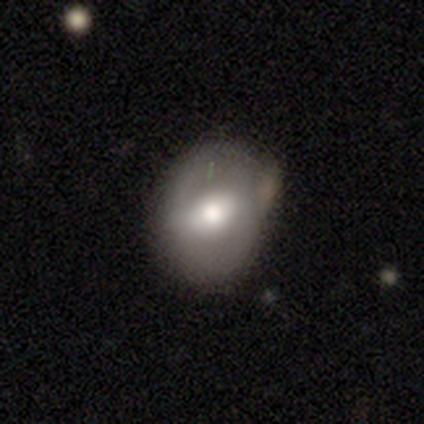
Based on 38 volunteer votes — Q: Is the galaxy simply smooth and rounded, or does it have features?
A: featured or disk — 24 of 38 (63%).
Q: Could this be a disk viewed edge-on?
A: no — 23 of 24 (96%).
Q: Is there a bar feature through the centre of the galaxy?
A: weak — 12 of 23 (52%).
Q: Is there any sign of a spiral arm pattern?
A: no — 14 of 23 (61%).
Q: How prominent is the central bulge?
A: moderate — 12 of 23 (52%).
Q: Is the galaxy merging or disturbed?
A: none — 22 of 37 (59%).